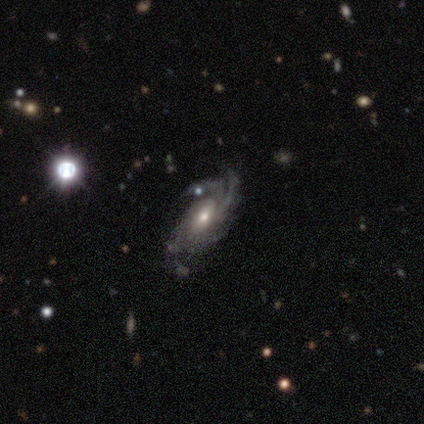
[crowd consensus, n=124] A featured or disk galaxy (90%) with no bar (57%), 4 (38%) medium (53%) spiral arms (98%) and a moderate central bulge (64%). Merging: none (58%).